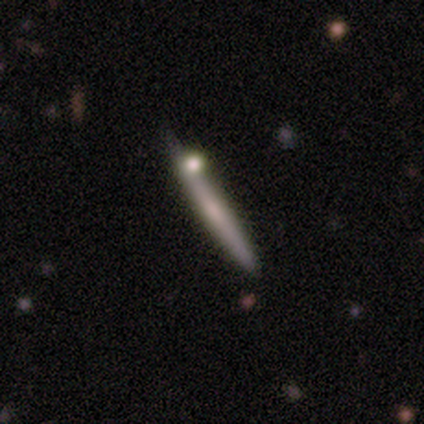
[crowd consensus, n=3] This is likely a smooth galaxy (67%). How rounded: clearly cigar-shaped (100%). Merging: clearly minor disturbance (100%).